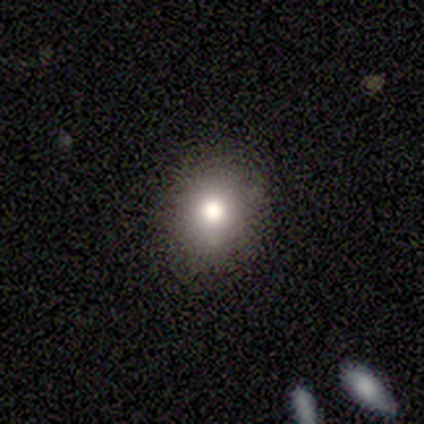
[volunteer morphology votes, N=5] smooth-or-featured: smooth: 100% | featured or disk: 0% | star or artifact: 0%
  how-rounded: in between: 80% | round: 20% | cigar-shaped: 0%
  merging: minor disturbance: 40% (tied) | major disturbance: 40% (tied) | none: 20% | merger: 0%